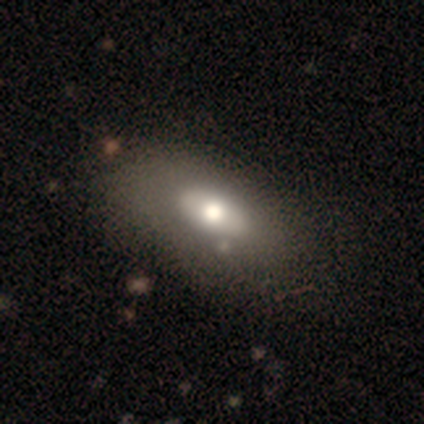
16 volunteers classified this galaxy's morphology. A smooth galaxy with no disk features (62%) that is in between round and cigar-shaped (90%).

Vote fractions:
- Smooth or featured? smooth: 62% / featured or disk: 25% / star or artifact: 12%
- How rounded? in between: 90% / cigar-shaped: 10% / round: 0%
- Merging? none: 79% / minor disturbance: 14% / major disturbance: 7% / merger: 0%